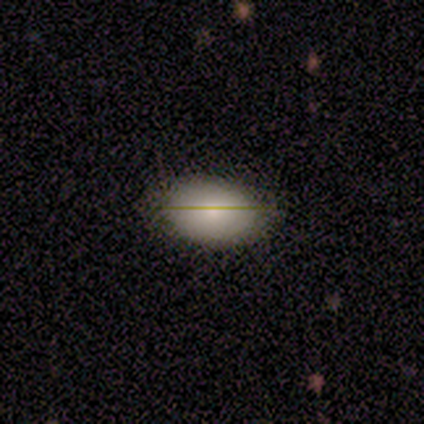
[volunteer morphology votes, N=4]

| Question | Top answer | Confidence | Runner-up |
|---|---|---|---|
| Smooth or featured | smooth | 75% | featured or disk (25%) |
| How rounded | in between | 100% | — |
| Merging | none | 100% | — |